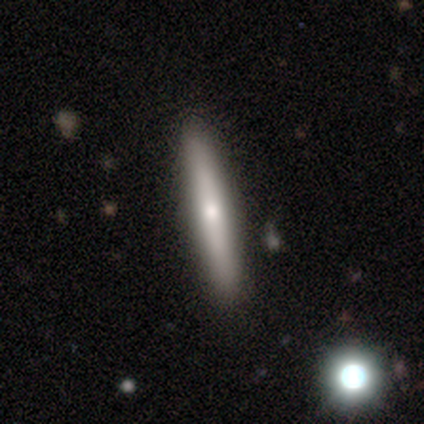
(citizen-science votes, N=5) Morphology: type=smooth (80%); roundness=cigar-shaped (75%); merging=none (100%).